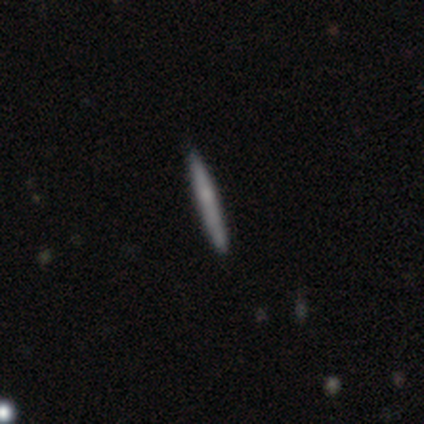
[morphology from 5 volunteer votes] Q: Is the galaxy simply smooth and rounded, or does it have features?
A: smooth — 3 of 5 (60%).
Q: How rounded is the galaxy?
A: cigar-shaped — 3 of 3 (100%).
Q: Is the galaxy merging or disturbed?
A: none — 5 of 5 (100%).